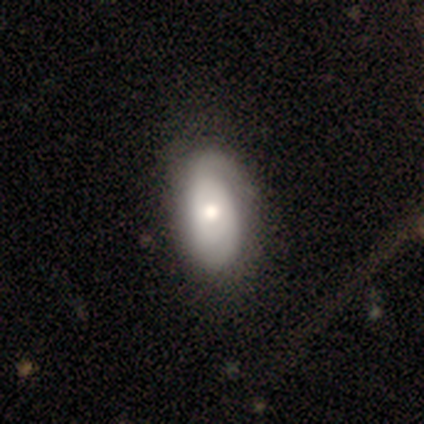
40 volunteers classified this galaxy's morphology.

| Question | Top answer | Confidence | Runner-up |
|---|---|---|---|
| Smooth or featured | featured or disk | 60% | smooth (40%) |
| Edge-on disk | no | 96% | yes (4%) |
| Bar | no | 87% | weak (13%) |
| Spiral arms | yes | 87% | no (13%) |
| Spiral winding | tight | 70% | medium (25%) |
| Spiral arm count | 2 | 50% | 1 (30%) |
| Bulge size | moderate | 70% | large (17%) |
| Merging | none | 40% | minor disturbance (25%) |